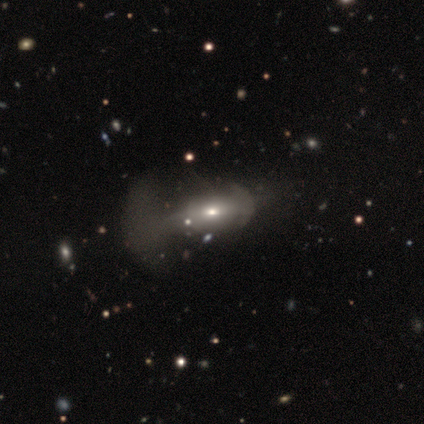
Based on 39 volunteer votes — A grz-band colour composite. It shows a smooth galaxy with no disk features (54%) that is in between round and cigar-shaped (67%). Merging: major disturbance (61%).